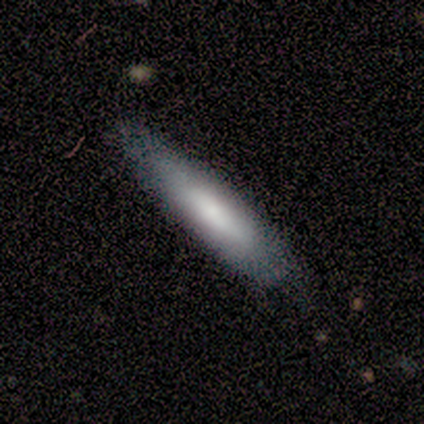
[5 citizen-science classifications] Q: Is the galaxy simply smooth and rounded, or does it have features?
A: smooth — 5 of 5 (100%).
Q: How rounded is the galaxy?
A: cigar-shaped — 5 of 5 (100%).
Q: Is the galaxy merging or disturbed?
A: none — 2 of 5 (40%, tied with major disturbance).